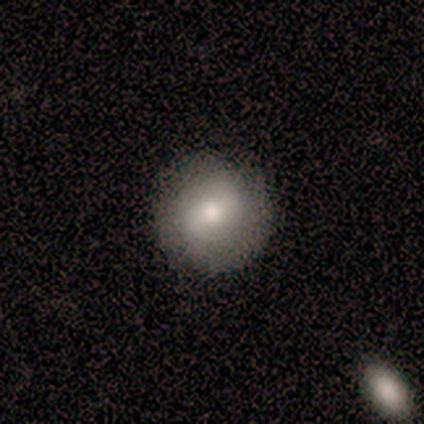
Overall: smooth (60%; featured or disk 40%). How rounded: round (100%). Merging: none (100%).